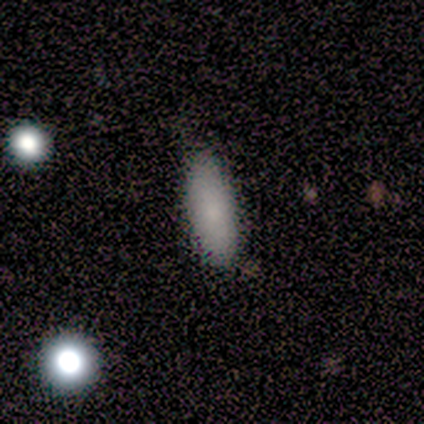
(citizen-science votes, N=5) Overall: smooth (80%). How rounded: in between (75%). Merging: none (60%; minor disturbance 20%).